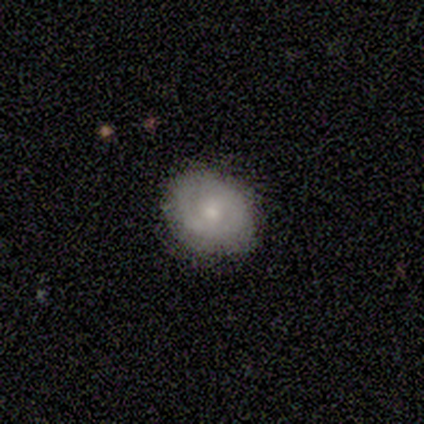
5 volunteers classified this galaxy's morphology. Smooth or featured? 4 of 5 (80%) said smooth. How rounded? 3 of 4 (75%) said in between. Merging? 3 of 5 (60%) said none.